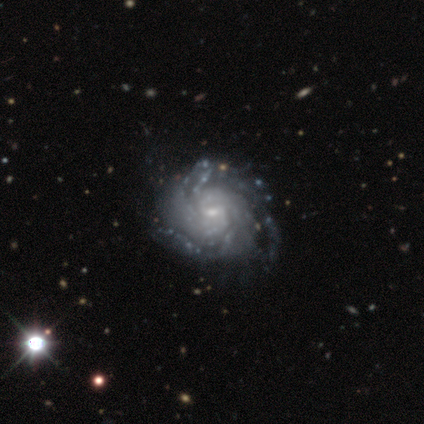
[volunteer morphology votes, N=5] Smooth or featured: featured or disk — 100%
Edge-on disk: no — 100%
Bar: no — 60% (weak — 40%)
Spiral arms: yes — 100%
Spiral winding: tight — 100%
Spiral arm count: can't tell — 60% (4 — 20%)
Bulge size: small — 60% (moderate — 40%)
Merging: none — 100%